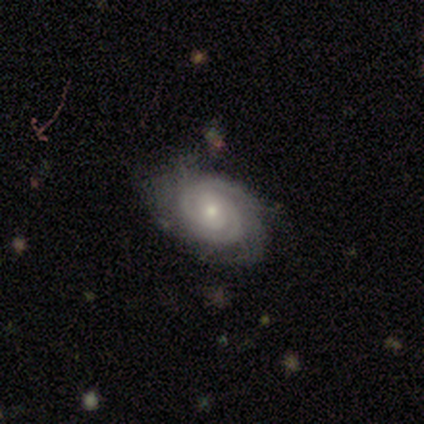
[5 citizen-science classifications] featured or disk 100%, smooth 0%, star or artifact 0%. Down the decision tree: edge-on disk — no (100%); bar — no (100%); spiral arms — yes (100%); spiral arm count — can't tell (60%); spiral winding — tight (80%); bulge size — small (80%); merging — none (80%).